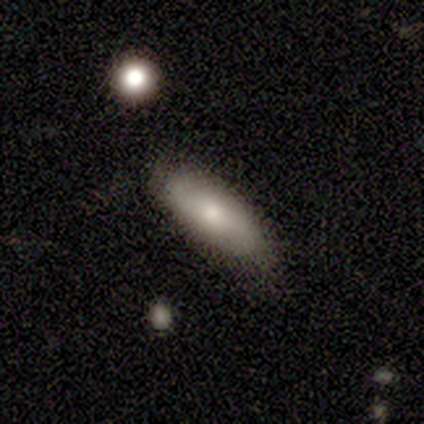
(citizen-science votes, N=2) Volunteers were most divided on "merging" (2-way tie): none: 50%, minor disturbance: 50%, major disturbance: 0%, merger: 0%. More confident: smooth or featured — smooth (100%); how rounded — in between (100%).